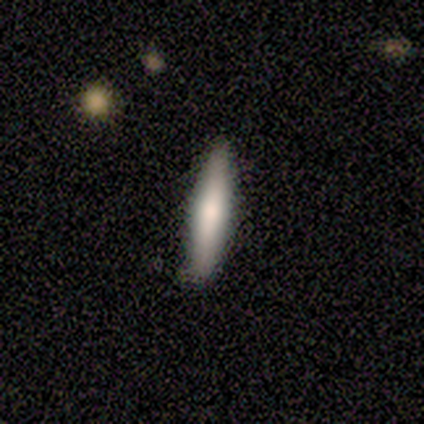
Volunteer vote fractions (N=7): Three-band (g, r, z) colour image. It shows a smooth galaxy with no disk features (86%) that is cigar-shaped (100%). Merging: none (86%).